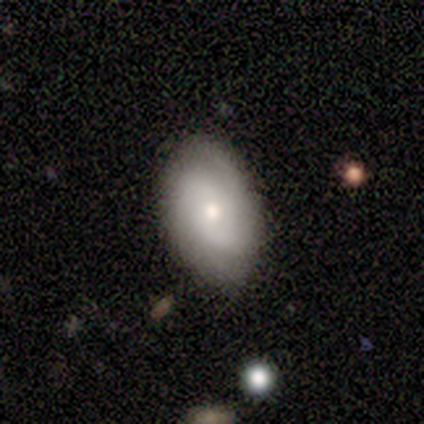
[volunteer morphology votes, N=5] Overall: smooth (40%, tied with featured or disk). How rounded: in between (100%). Merging: none (100%).